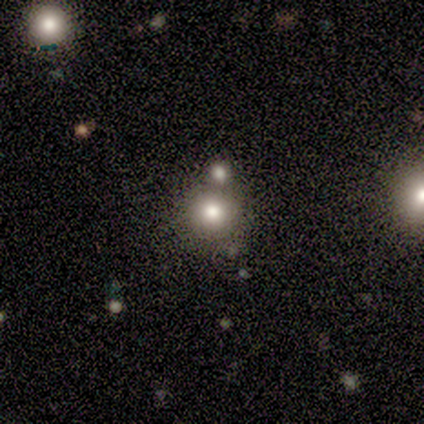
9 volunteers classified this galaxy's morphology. type=smooth (78%); roundness=round (86%); merging=none (57%).